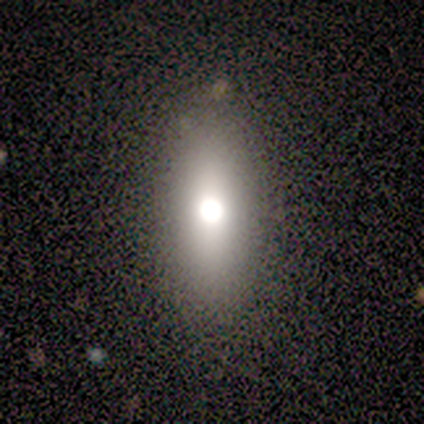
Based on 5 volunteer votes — Morphology: type=smooth (80%); roundness=in between (50%, tied with cigar-shaped); merging=none (50%, tied with minor disturbance).